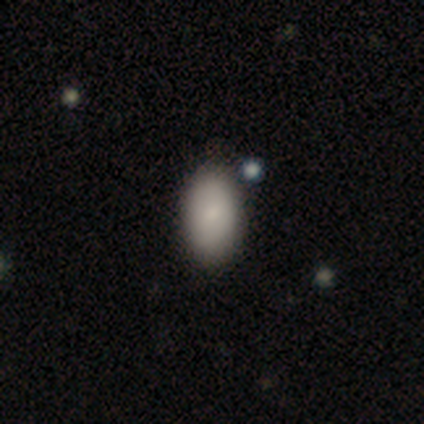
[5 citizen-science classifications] A smooth galaxy with no disk features (100%) that is in between round and cigar-shaped (100%).

Vote fractions:
- Smooth or featured? smooth: 100% / featured or disk: 0% / star or artifact: 0%
- How rounded? in between: 100% / round: 0% / cigar-shaped: 0%
- Merging? none: 100% / minor disturbance: 0% / major disturbance: 0% / merger: 0%